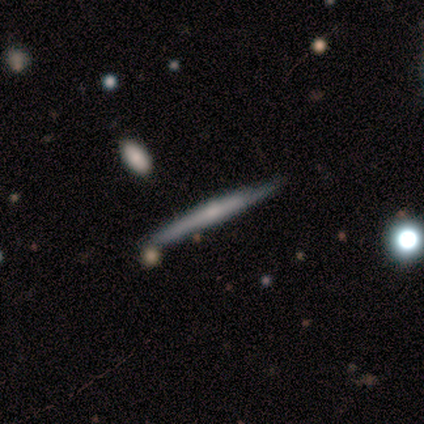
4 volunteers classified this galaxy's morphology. smooth-or-featured: featured or disk: 75% | smooth: 25% | star or artifact: 0%
  disk-edge-on: yes: 100% | no: 0%
    edge-on-bulge: rounded: 67% | none: 33% | boxy: 0%
  merging: none: 75% | minor disturbance: 25% | major disturbance: 0% | merger: 0%